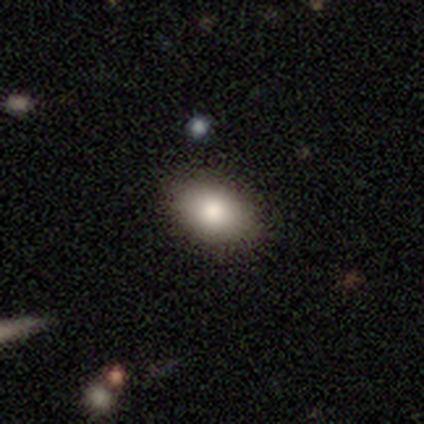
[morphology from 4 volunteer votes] This is clearly a smooth galaxy (100%). How rounded: clearly in between (100%). Merging: likely none (75%).